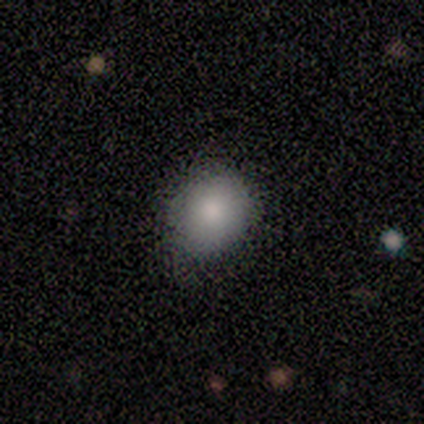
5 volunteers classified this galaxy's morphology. This appears to be a smooth galaxy with no disk features (100%) that is in between round and cigar-shaped (60%). Merging: none (60%).